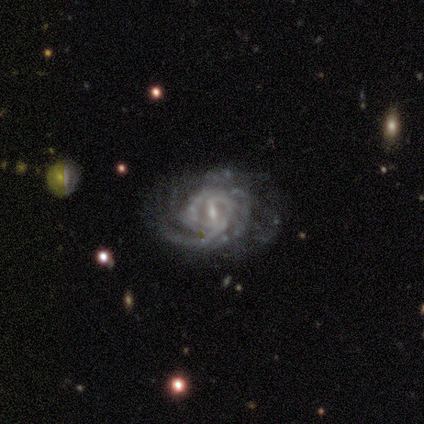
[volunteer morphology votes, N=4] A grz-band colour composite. It shows a featured or disk galaxy (100%) with a weak bar (50%), tight (100%) spiral arms (100%) and a small central bulge (100%). Merging: none (50%, tied with minor disturbance).